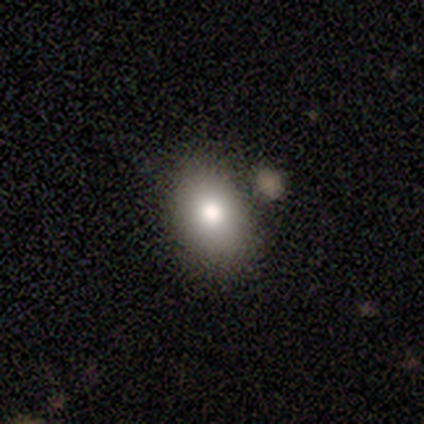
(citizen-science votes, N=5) smooth_or_featured: smooth (p=1.00)
how_rounded: in between (p=0.60) [alt: round p=0.40]
merging: none (p=0.80) [alt: major disturbance p=0.20]